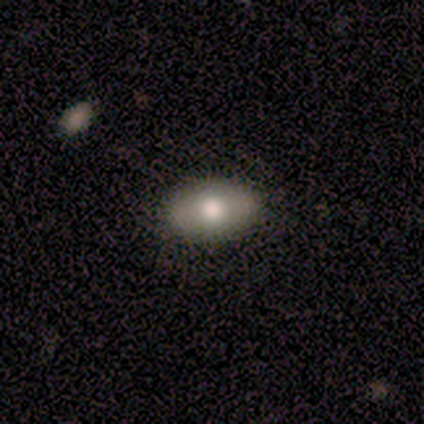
Smooth or featured: smooth — 60% (featured or disk — 40%)
How rounded: in between — 100%
Merging: none — 80% (minor disturbance — 20%)